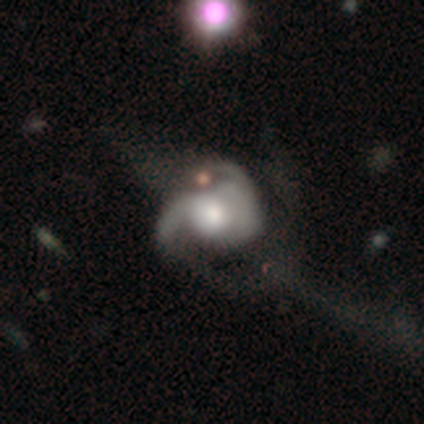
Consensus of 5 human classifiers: A featured or disk galaxy (60%) with no bar (100%), 1 (33%, tied with 2 and 3) medium (67%) spiral arms (100%) and a large central bulge (33%, tied with moderate and small).

Vote fractions:
- Smooth or featured? featured or disk: 60% / smooth: 40% / star or artifact: 0%
- Edge-on disk? no: 100% / yes: 0%
- Bar? no: 100% / strong: 0% / weak: 0%
- Spiral arms? yes: 100% / no: 0%
- Spiral winding? medium: 67% / loose: 33% / tight: 0%
- Spiral arm count? 1: 33% (tied) / 2: 33% (tied) / 3: 33% (tied) / 4: 0% / more than 4: 0% / can't tell: 0%
- Bulge size? large: 33% (tied) / moderate: 33% (tied) / small: 33% (tied) / dominant: 0% / none: 0%
- Merging? major disturbance: 60% / minor disturbance: 20% / merger: 20% / none: 0%